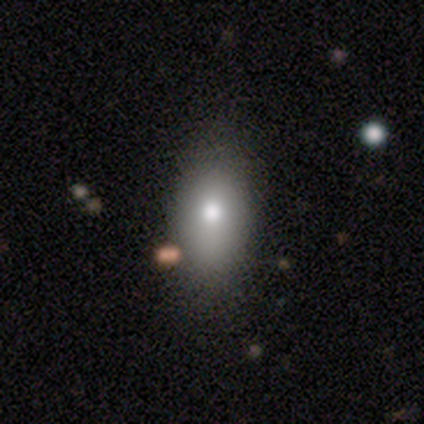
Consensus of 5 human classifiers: Smooth or featured? smooth (80%)
How rounded? in between (100%)
Merging? none (80%)